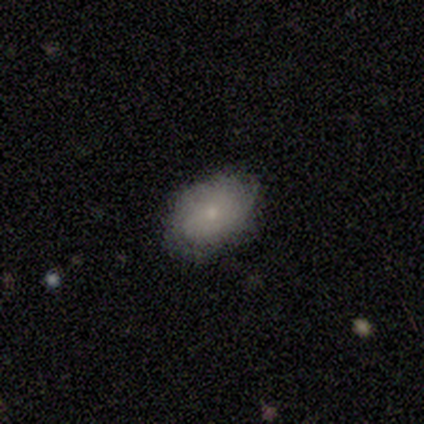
Overall: smooth (80%). How rounded: in between (75%). Merging: none (100%).